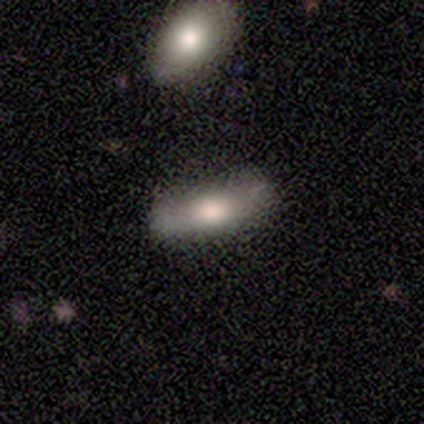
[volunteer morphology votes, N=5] Smooth or featured? smooth (80%)
How rounded? in between (50%, tied with cigar-shaped)
Merging? none (100%)